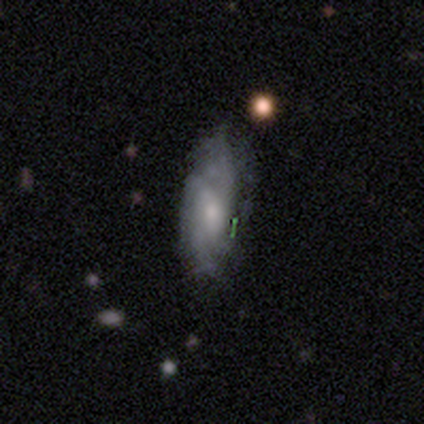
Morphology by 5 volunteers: Smooth or featured? featured or disk (60%)
Edge-on disk? no (100%)
Bar? no (67%)
Spiral arms? yes (67%)
Spiral winding? tight (50%, tied with medium)
Spiral arm count? 2 (50%, tied with can't tell)
Bulge size? small (67%)
Merging? none (80%)